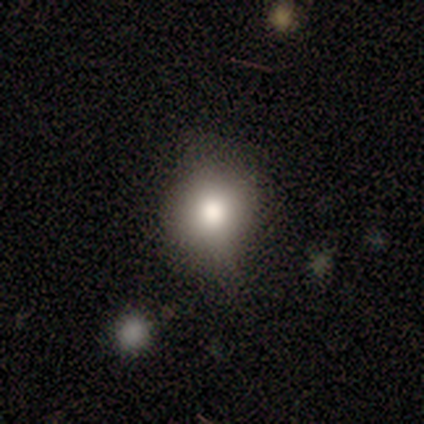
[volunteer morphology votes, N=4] smooth_or_featured: smooth (p=0.50) [tied with: featured or disk p=0.50]
how_rounded: round (p=1.00)
merging: none (p=0.75) [alt: minor disturbance p=0.25]